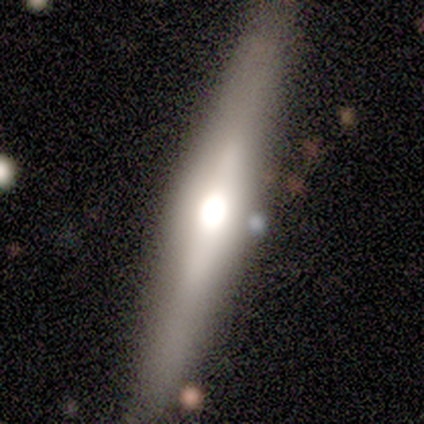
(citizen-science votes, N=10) Smooth or featured?
  - featured or disk: 80% *
  - smooth: 20%
  - star or artifact: 0%
Edge-on disk?
  - yes: 88% *
  - no: 12%
Edge-on bulge?
  - rounded: 100% *
  - boxy: 0%
  - none: 0%
Merging?
  - none: 80% *
  - major disturbance: 10%
  - merger: 10%
  - minor disturbance: 0%